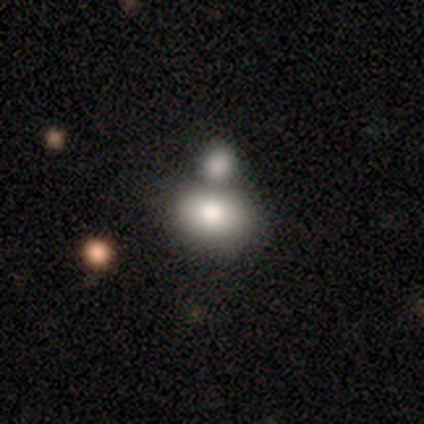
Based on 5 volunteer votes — Q: Smooth or featured?
A: smooth (80%); runner-up: featured or disk (20%)
Q: How rounded?
A: in between (100%)
Q: Merging?
A: none (40%); tied with: merger (40%)